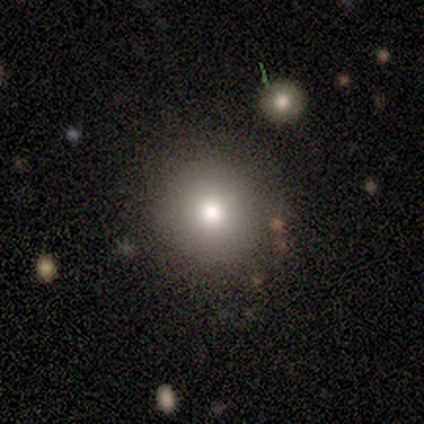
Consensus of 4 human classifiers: Smooth or featured: smooth — 100%
How rounded: round — 100%
Merging: none — 100%